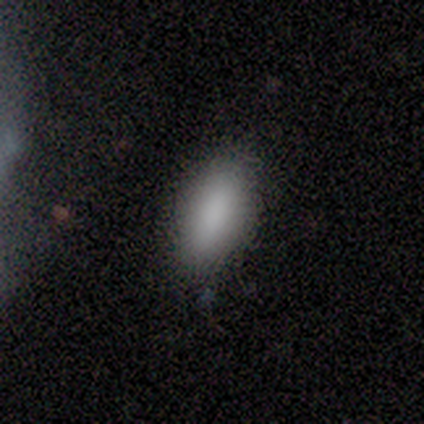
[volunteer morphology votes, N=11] Smooth or featured?
  - smooth: 91% *
  - featured or disk: 9%
  - star or artifact: 0%
How rounded?
  - in between: 100% *
  - round: 0%
  - cigar-shaped: 0%
Merging?
  - none: 82% *
  - minor disturbance: 18%
  - major disturbance: 0%
  - merger: 0%